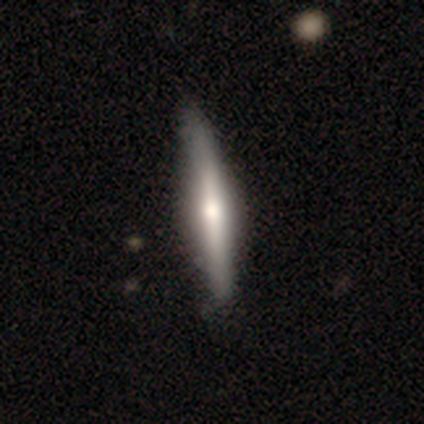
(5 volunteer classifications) smooth-or-featured: smooth: 60% | featured or disk: 40% | star or artifact: 0%
  how-rounded: cigar-shaped: 67% | in between: 33% | round: 0%
  merging: none: 100% | minor disturbance: 0% | major disturbance: 0% | merger: 0%